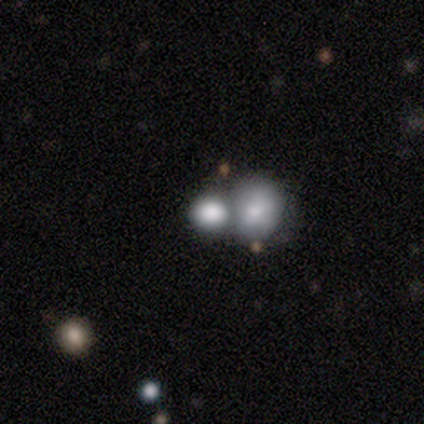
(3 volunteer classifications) A smooth galaxy with no disk features (100%) that is round (100%).

Vote fractions:
- Smooth or featured? smooth: 100% / featured or disk: 0% / star or artifact: 0%
- How rounded? round: 100% / in between: 0% / cigar-shaped: 0%
- Merging? merger: 67% / none: 33% / minor disturbance: 0% / major disturbance: 0%